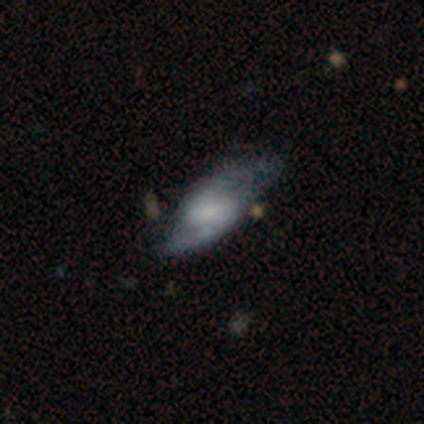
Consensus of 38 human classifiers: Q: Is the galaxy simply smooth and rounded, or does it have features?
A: featured or disk — 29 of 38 (76%).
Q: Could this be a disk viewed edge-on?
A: no — 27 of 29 (93%).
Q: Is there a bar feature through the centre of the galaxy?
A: weak — 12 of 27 (44%).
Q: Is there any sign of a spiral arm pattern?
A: yes — 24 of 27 (89%).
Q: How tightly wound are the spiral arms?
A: loose — 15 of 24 (62%).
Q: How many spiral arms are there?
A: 2 — 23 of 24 (96%).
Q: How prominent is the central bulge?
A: small — 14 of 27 (52%).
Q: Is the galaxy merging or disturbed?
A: minor disturbance — 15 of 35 (43%).